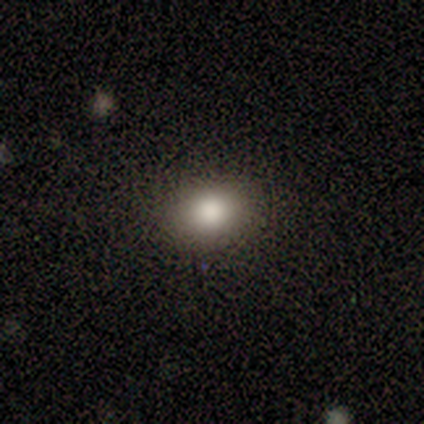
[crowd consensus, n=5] smooth_or_featured: smooth (p=1.00)
how_rounded: in between (p=0.60) [alt: round p=0.40]
merging: none (p=1.00)